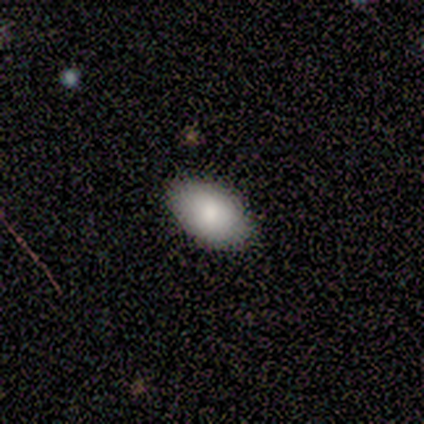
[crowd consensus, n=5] Smooth or featured: smooth — 100%
How rounded: in between — 100%
Merging: none — 100%